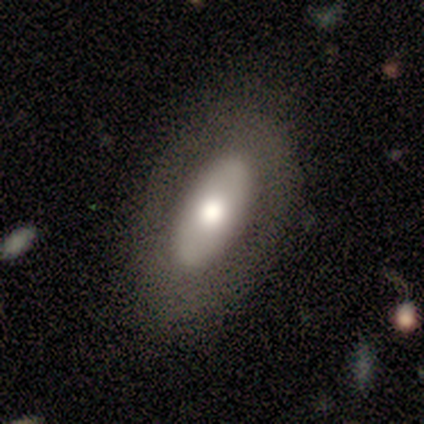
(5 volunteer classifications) Smooth or featured? 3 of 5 (60%) said featured or disk. Edge-on disk? 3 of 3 (100%) said no. Bar? 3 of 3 (100%) said no. Spiral arms? 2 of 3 (67%) said no. Bulge size? 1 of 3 (33%, tied with large and moderate) said dominant. Merging? 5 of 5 (100%) said none.